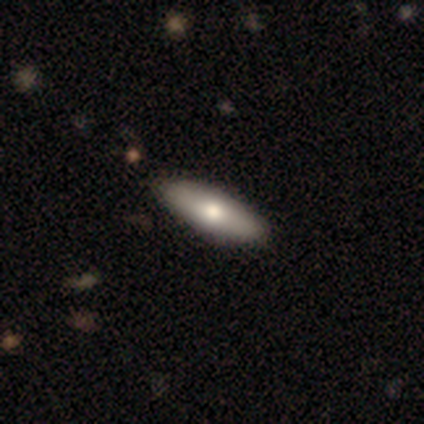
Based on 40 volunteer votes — Overall: smooth (68%). How rounded: in between (56%; cigar-shaped 41%). Merging: none (62%).